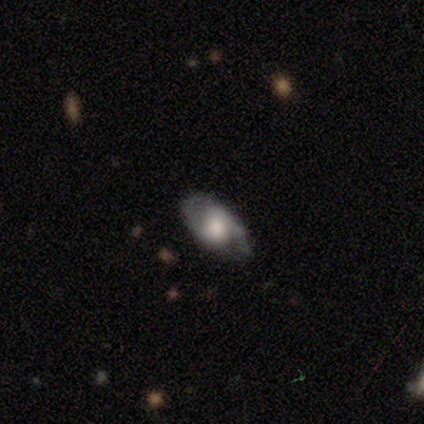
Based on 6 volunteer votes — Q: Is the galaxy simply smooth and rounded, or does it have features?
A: featured or disk — 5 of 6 (83%).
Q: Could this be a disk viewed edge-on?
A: no — 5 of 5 (100%).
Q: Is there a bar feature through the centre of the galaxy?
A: weak — 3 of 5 (60%).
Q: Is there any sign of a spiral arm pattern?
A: yes — 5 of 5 (100%).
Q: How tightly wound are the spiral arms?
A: medium — 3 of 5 (60%).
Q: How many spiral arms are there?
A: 2 — 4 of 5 (80%).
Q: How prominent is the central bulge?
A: moderate — 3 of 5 (60%).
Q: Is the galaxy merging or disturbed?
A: none — 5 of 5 (100%).